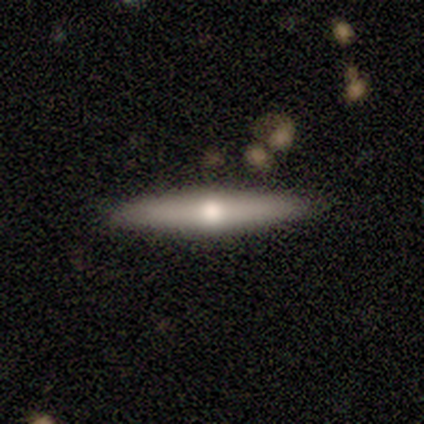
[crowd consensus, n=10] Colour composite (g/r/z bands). It shows a featured or disk galaxy (60%) viewed edge-on (100%) with a rounded central bulge (83%). Merging: none (90%).